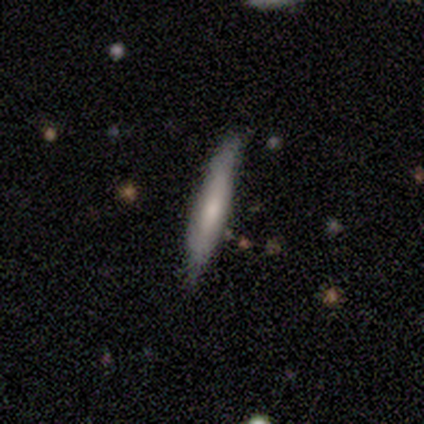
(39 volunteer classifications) Smooth or featured? 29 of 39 (74%) said smooth. How rounded? 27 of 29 (93%) said cigar-shaped. Merging? 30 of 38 (79%) said none.